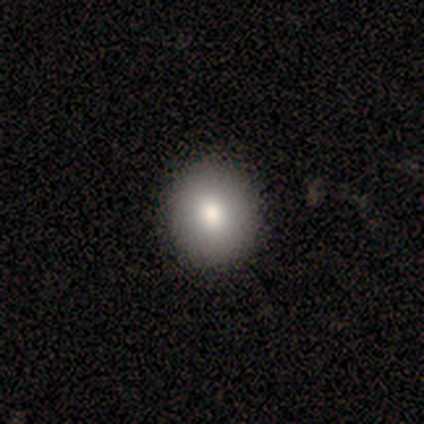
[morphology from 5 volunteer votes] Q: Smooth or featured?
A: smooth (100%)
Q: How rounded?
A: round (60%); runner-up: in between (40%)
Q: Merging?
A: none (100%)